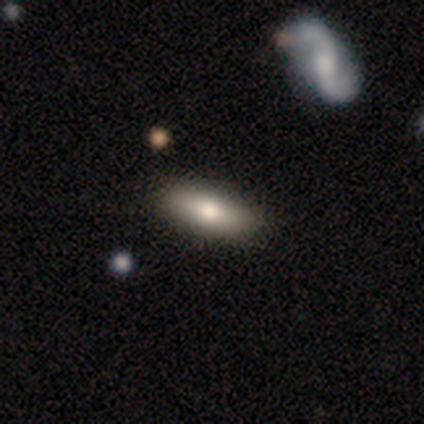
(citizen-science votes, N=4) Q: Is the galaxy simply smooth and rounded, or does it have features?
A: smooth — 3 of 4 (75%).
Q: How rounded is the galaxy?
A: in between — 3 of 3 (100%).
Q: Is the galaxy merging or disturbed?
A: none — 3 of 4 (75%).